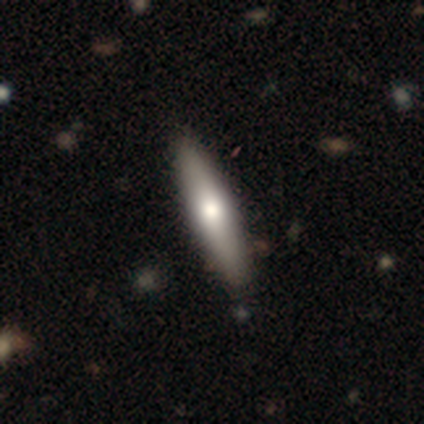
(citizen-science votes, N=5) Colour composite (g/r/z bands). It shows a smooth galaxy with no disk features (60%) that is cigar-shaped (100%). Merging: none (100%).